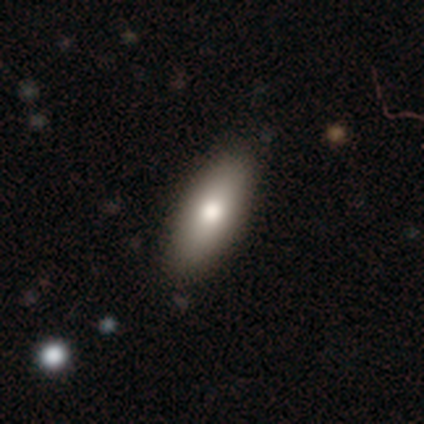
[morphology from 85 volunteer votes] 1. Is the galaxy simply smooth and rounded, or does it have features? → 72% smooth, 21% featured or disk, 7% star or artifact.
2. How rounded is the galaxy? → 75% in between, 23% cigar-shaped, 2% round.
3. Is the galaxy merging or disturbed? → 95% none, 4% minor disturbance, 1% major disturbance, 0% merger.